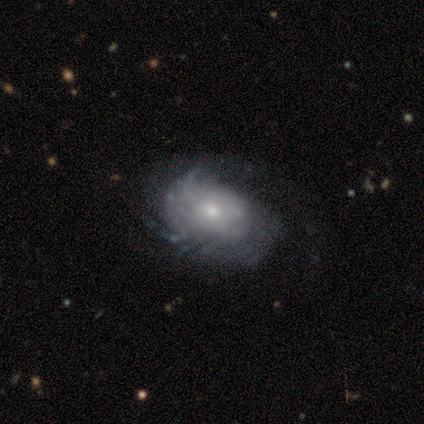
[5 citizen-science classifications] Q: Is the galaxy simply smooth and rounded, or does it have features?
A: featured or disk — 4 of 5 (80%).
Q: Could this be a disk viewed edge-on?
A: no — 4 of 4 (100%).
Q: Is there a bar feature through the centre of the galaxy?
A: no — 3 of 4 (75%).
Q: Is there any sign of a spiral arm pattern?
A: yes — 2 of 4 (50%, tied with no).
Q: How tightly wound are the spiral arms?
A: tight — 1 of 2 (50%, tied with loose).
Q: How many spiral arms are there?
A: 2 — 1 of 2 (50%, tied with can't tell).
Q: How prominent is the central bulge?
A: small — 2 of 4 (50%).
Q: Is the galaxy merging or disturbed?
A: minor disturbance — 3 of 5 (60%).